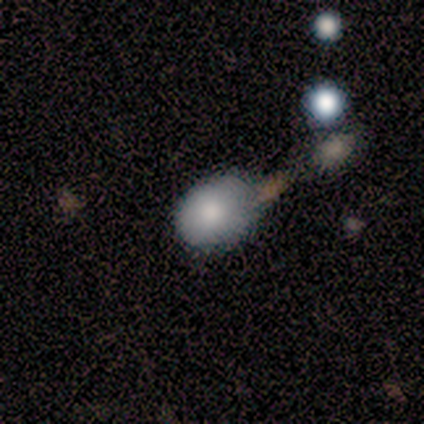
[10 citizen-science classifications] smooth-or-featured: smooth: 90% | featured or disk: 10% | star or artifact: 0%
  how-rounded: round: 67% | in between: 33% | cigar-shaped: 0%
  merging: none: 50% | minor disturbance: 40% | merger: 10% | major disturbance: 0%